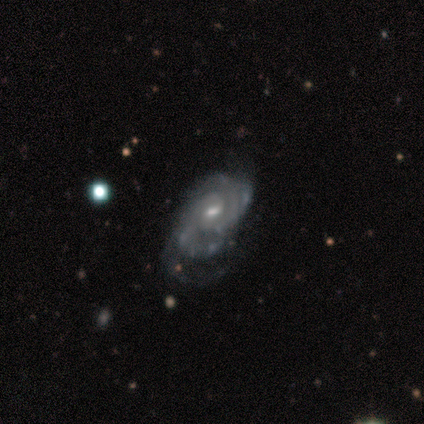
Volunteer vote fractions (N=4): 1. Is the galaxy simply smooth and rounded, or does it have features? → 100% featured or disk, 0% smooth, 0% star or artifact.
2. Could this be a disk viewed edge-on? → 100% no, 0% yes.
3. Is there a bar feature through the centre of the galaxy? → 75% weak, 25% no, 0% strong.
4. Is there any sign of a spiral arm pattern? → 75% yes, 25% no.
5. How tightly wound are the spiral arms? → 100% medium, 0% tight, 0% loose.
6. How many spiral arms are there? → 100% 4, 0% 1, 0% 2, 0% 3, 0% more than 4, 0% can't tell.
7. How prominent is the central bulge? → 75% moderate, 25% small, 0% dominant, 0% large, 0% none.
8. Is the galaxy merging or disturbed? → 50% major disturbance, 25% none, 25% minor disturbance, 0% merger.